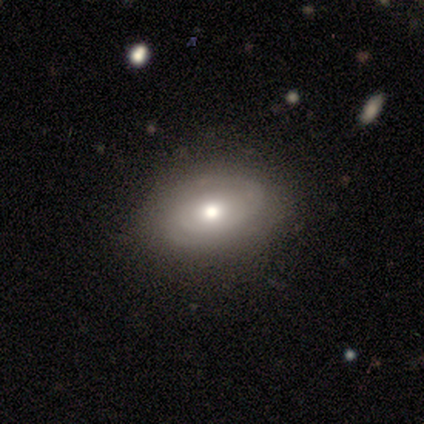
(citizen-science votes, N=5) This is likely a featured or disk galaxy (60%). It is clearly not viewed edge-on (100%). Bar: clearly no (100%). Spiral arm pattern: clearly yes (100%). Spiral arm count: marginally 2 (33%, tied with 3 and can't tell). Spiral winding: likely tight (67%). Central bulge: clearly moderate (100%). Merging: clearly none (80%).